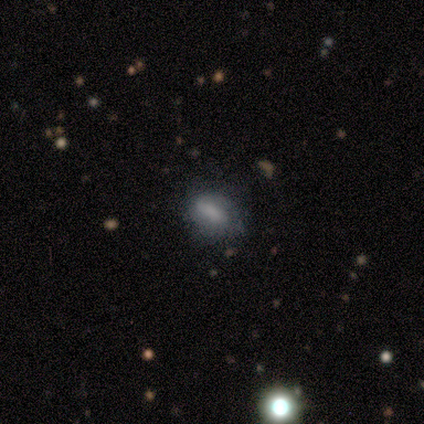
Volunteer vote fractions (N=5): smooth-or-featured: smooth: 60% | featured or disk: 40% | star or artifact: 0%
  how-rounded: in between: 100% | round: 0% | cigar-shaped: 0%
  merging: none: 60% | minor disturbance: 20% | merger: 20% | major disturbance: 0%